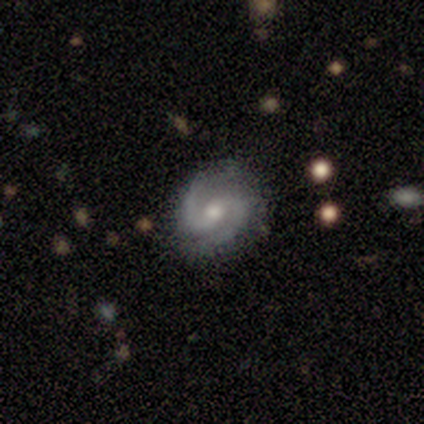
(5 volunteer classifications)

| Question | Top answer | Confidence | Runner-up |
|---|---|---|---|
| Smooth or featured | featured or disk | 100% | — |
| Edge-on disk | no | 100% | — |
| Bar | weak | 60% | no (40%) |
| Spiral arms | yes | 100% | — |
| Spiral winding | tight | 40% | tied: medium (40%) |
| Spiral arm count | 2 | 100% | — |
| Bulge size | moderate | 100% | — |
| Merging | none | 80% | minor disturbance (20%) |